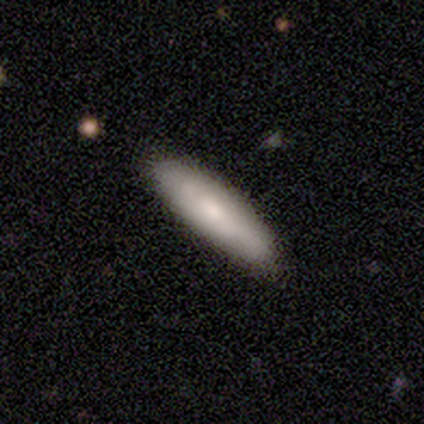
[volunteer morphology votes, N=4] type=smooth (75%); roundness=cigar-shaped (67%); merging=none (75%).